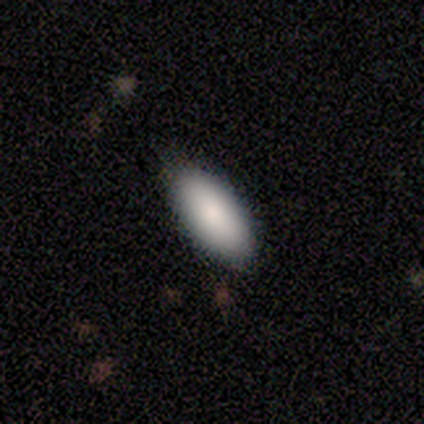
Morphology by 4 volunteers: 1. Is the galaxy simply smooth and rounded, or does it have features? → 75% smooth, 25% featured or disk, 0% star or artifact.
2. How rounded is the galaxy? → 100% in between, 0% round, 0% cigar-shaped.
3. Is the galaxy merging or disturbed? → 100% none, 0% minor disturbance, 0% major disturbance, 0% merger.